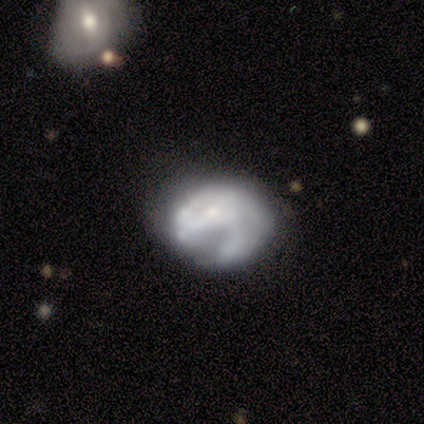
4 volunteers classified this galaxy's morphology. Smooth or featured? featured or disk (100%)
Edge-on disk? no (100%)
Bar? no (75%)
Spiral arms? no (75%)
Bulge size? none (50%)
Merging? none (75%)